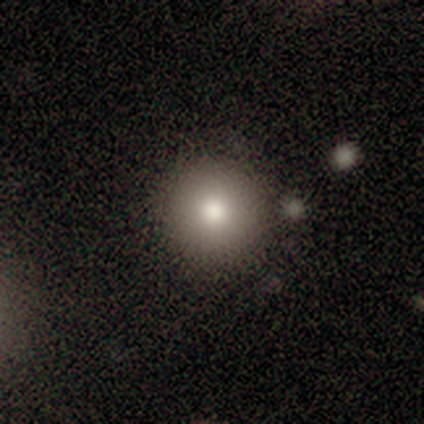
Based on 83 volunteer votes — smooth_or_featured: smooth (p=0.77) [alt: star or artifact p=0.12]
how_rounded: round (p=0.98) [alt: in between p=0.02]
merging: none (p=0.88) [alt: minor disturbance p=0.10]